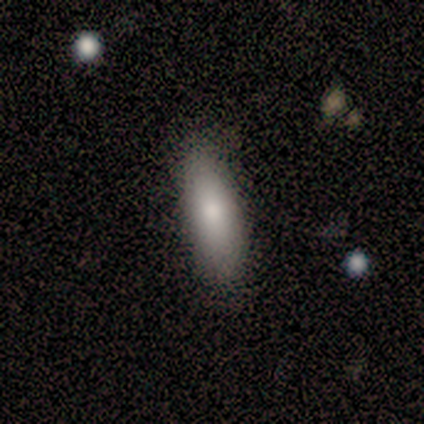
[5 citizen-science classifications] Volunteers were most divided on "how rounded": cigar-shaped: 60%, in between: 40%, round: 0%. More confident: smooth or featured — smooth (100%); merging — none (100%).